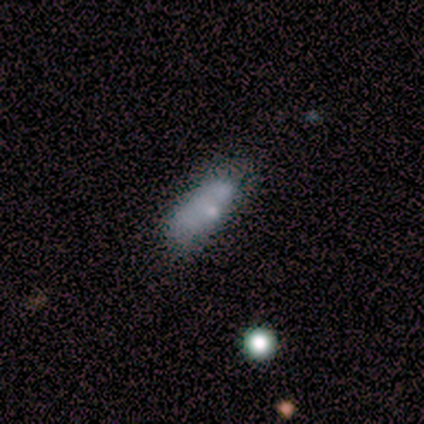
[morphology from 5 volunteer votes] Overall: smooth (40%, tied with star or artifact). How rounded: in between (100%). Merging: merger (67%; minor disturbance 33%).